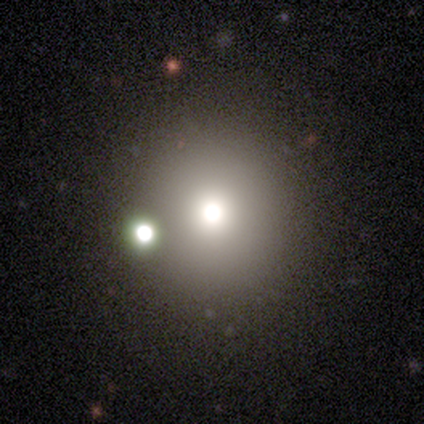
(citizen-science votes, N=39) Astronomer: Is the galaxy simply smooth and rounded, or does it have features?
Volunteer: smooth — 54% (runner-up: star or artifact, 31%).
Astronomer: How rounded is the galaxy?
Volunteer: round — 100%.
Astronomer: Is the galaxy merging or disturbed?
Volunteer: none — 70%.